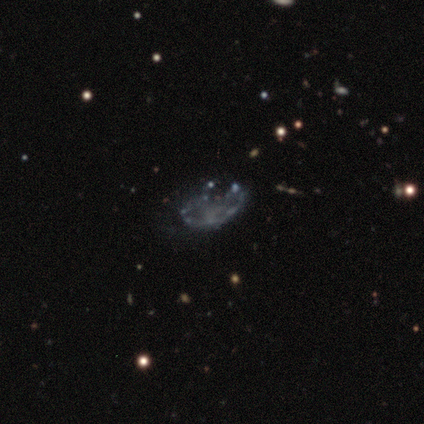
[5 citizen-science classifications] Overall: featured or disk (80%). Edge-on disk: no (100%). Bar: no (75%). Spiral arms: no (100%). Bulge size: none (75%). Merging: none (60%; minor disturbance 40%).